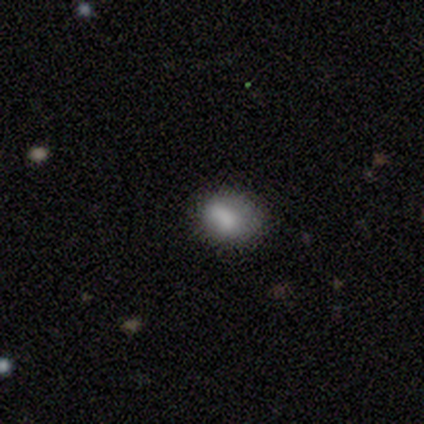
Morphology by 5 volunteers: Smooth or featured: smooth — 80% (star or artifact — 20%)
How rounded: round — 50% (tied with in between — 50%)
Merging: none — 50% (tied with minor disturbance — 50%)